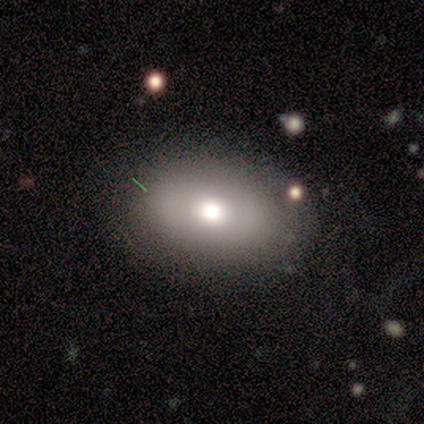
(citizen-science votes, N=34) Smooth or featured? 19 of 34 (56%) said smooth. How rounded? 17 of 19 (89%) said in between. Merging? 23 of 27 (85%) said none.